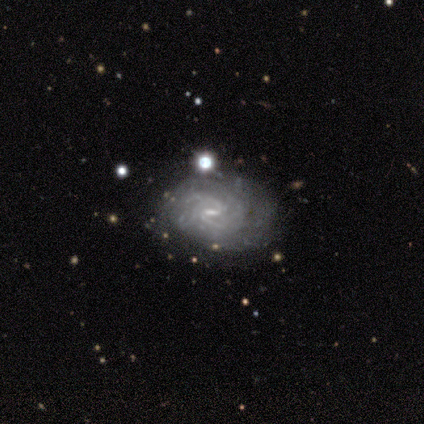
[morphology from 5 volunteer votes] smooth_or_featured: featured or disk (p=1.00)
disk_edge_on: no (p=0.80) [alt: yes p=0.20]
bar: weak (p=0.75) [alt: strong p=0.25]
has_spiral_arms: yes (p=1.00)
spiral_winding: tight (p=0.50) [tied with: medium p=0.50]
spiral_arm_count: 2 (p=0.50) [tied with: can't tell p=0.50]
bulge_size: moderate (p=0.75) [alt: small p=0.25]
merging: minor disturbance (p=0.40) [tied with: major disturbance p=0.40]